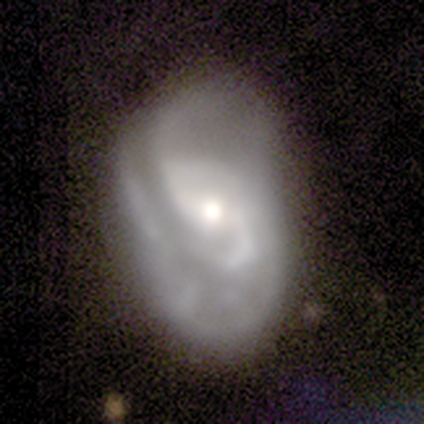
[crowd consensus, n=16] Smooth or featured?
  - featured or disk: 69% *
  - smooth: 25%
  - star or artifact: 6%
Edge-on disk?
  - no: 100% *
  - yes: 0%
Bar?
  - no: 45% *
  - weak: 36%
  - strong: 18%
Spiral arms?
  - yes: 100% *
  - no: 0%
Spiral winding?
  - tight: 55% *
  - loose: 27%
  - medium: 18%
Spiral arm count?
  - 2: 36% *
  - 4: 27%
  - 3: 18%
  - 1: 9%
  - can't tell: 9%
  - more than 4: 0%
Bulge size?
  - moderate: 73% *
  - large: 18%
  - small: 9%
  - dominant: 0%
  - none: 0%
Merging?
  - major disturbance: 53% *
  - none: 40%
  - minor disturbance: 7%
  - merger: 0%